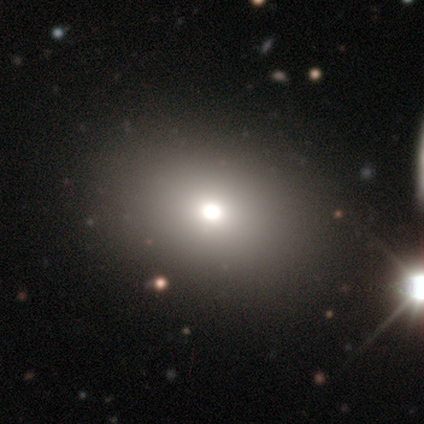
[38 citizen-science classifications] Smooth or featured?
  - smooth: 61% *
  - star or artifact: 26%
  - featured or disk: 13%
How rounded?
  - in between: 52% *
  - round: 48%
  - cigar-shaped: 0%
Merging?
  - none: 89% *
  - minor disturbance: 11%
  - major disturbance: 0%
  - merger: 0%